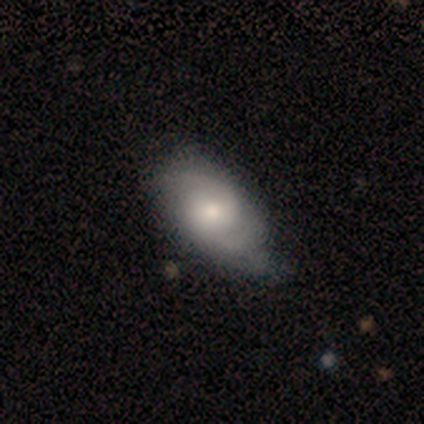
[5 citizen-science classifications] smooth_or_featured: featured or disk (p=0.80) [alt: smooth p=0.20]
disk_edge_on: no (p=1.00)
bar: no (p=1.00)
has_spiral_arms: yes (p=1.00)
spiral_winding: medium (p=0.75) [alt: tight p=0.25]
spiral_arm_count: 2 (p=1.00)
bulge_size: moderate (p=0.50) [tied with: small p=0.50]
merging: none (p=0.60) [alt: minor disturbance p=0.40]